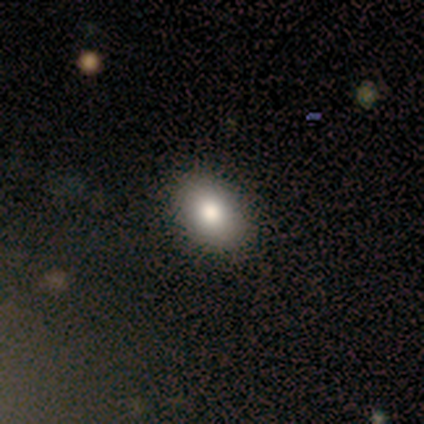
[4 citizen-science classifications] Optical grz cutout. It shows a smooth galaxy with no disk features (75%) that is in between round and cigar-shaped (100%). Merging: none (100%).